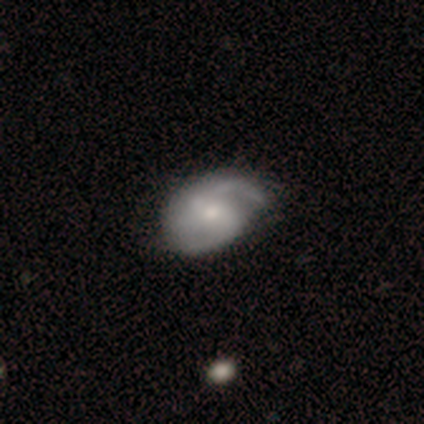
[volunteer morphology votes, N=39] Smooth or featured? 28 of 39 (72%) said featured or disk. Edge-on disk? 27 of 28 (96%) said no. Bar? 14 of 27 (52%) said weak. Spiral arms? 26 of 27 (96%) said yes. Spiral winding? 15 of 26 (58%) said medium. Spiral arm count? 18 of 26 (69%) said 2. Bulge size? 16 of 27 (59%) said moderate. Merging? 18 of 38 (47%) said none.